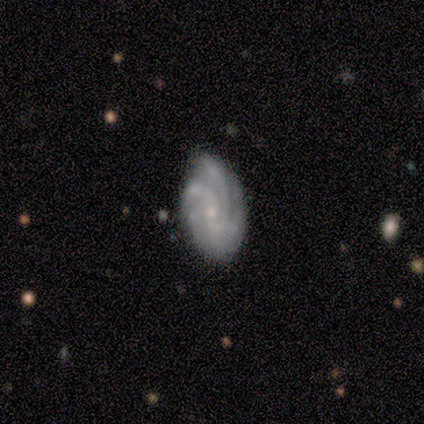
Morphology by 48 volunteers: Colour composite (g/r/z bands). It shows a featured or disk galaxy (77%) with no bar (71%), 3 (42%) tight (58%) spiral arms (94%) and a small central bulge (83%). Merging: none (60%).